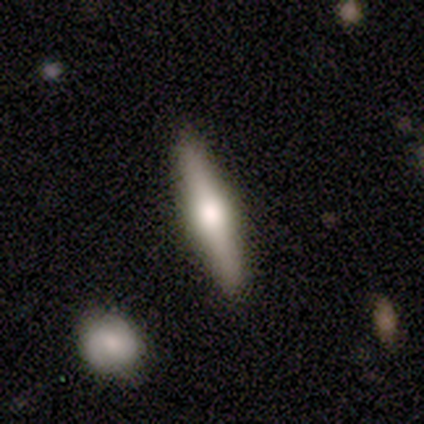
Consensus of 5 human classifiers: Q: Smooth or featured?
A: smooth (40%); tied with: featured or disk (40%)
Q: How rounded?
A: cigar-shaped (100%)
Q: Merging?
A: none (100%)